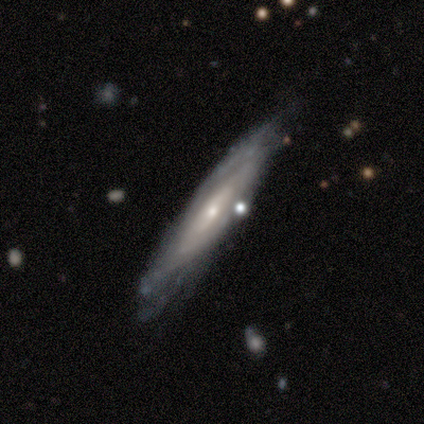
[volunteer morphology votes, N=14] Smooth or featured?
  - featured or disk: 86% *
  - smooth: 14%
  - star or artifact: 0%
Edge-on disk?
  - no: 67% *
  - yes: 33%
Bar?
  - weak: 38% * (tied)
  - no: 38% * (tied)
  - strong: 25%
Spiral arms?
  - yes: 100% *
  - no: 0%
Spiral winding?
  - tight: 75% *
  - medium: 12%
  - loose: 12%
Spiral arm count?
  - can't tell: 75% *
  - 2: 12%
  - more than 4: 12%
  - 1: 0%
  - 3: 0%
  - 4: 0%
Bulge size?
  - small: 100% *
  - dominant: 0%
  - large: 0%
  - moderate: 0%
  - none: 0%
Merging?
  - none: 64% *
  - minor disturbance: 21%
  - major disturbance: 7%
  - merger: 7%